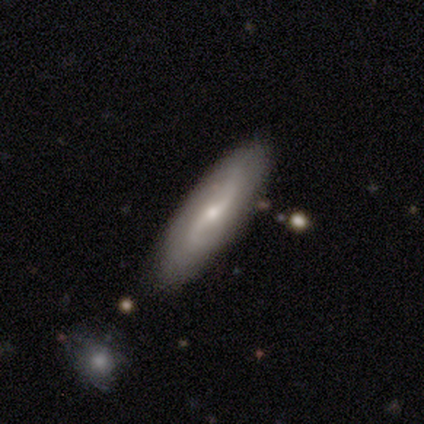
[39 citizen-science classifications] This is likely a featured or disk galaxy (64%). It is clearly not viewed edge-on (88%). Bar: possibly weak (50%). Spiral arm pattern: clearly yes (95%). Spiral arm count: clearly 2 (86%). Spiral winding: likely loose (62%). Central bulge: possibly small (59%). Merging: clearly none (83%).